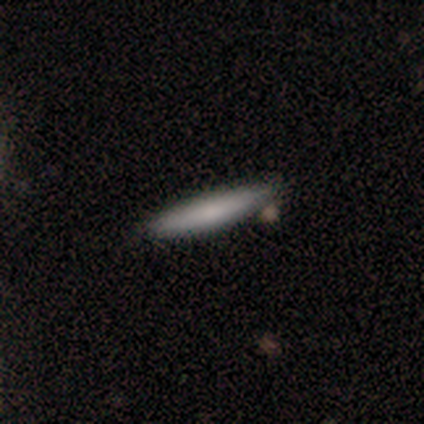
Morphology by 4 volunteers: Smooth or featured?
  - smooth: 50% * (tied)
  - featured or disk: 50% * (tied)
  - star or artifact: 0%
How rounded?
  - cigar-shaped: 100% *
  - round: 0%
  - in between: 0%
Merging?
  - none: 50% * (tied)
  - minor disturbance: 50% * (tied)
  - major disturbance: 0%
  - merger: 0%